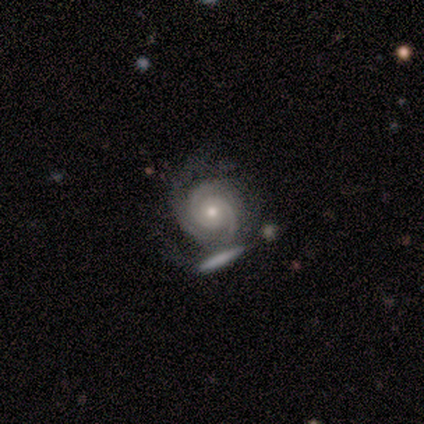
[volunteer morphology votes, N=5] This is clearly a featured or disk galaxy (80%). It is clearly not viewed edge-on (100%). Bar: likely no (75%). Spiral arm pattern: clearly yes (100%). Spiral arm count: marginally 1 (25%, tied with 2, 3 and can't tell). Spiral winding: likely tight (75%). Central bulge: likely moderate (75%). Merging: likely none (75%).